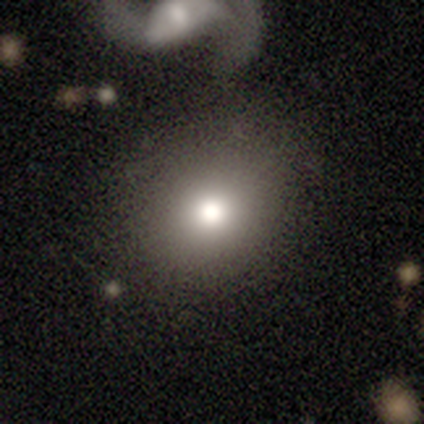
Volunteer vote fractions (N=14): Volunteers were most divided on "how rounded": round: 60%, in between: 40%, cigar-shaped: 0%. More confident: merging — none (82%); smooth or featured — smooth (71%).